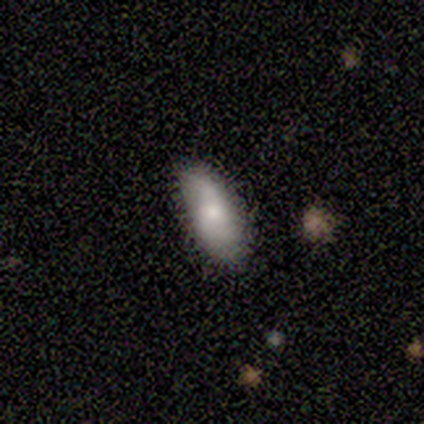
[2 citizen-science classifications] A smooth galaxy with no disk features (100%) that is in between round and cigar-shaped (100%). Merging: none (50%, tied with minor disturbance).